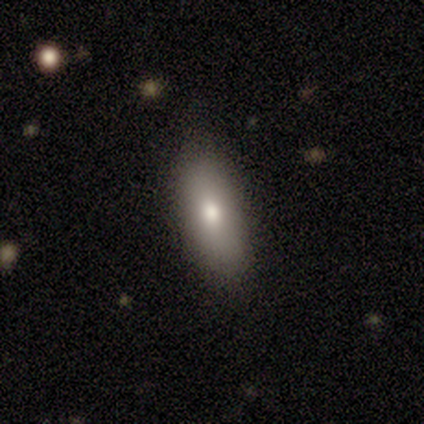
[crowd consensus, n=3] Smooth or featured?
  - smooth: 67% *
  - featured or disk: 33%
  - star or artifact: 0%
How rounded?
  - in between: 100% *
  - round: 0%
  - cigar-shaped: 0%
Merging?
  - none: 100% *
  - minor disturbance: 0%
  - major disturbance: 0%
  - merger: 0%